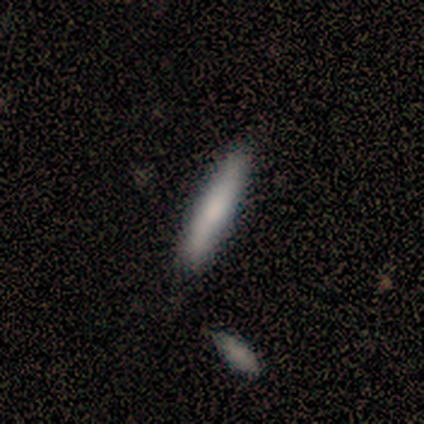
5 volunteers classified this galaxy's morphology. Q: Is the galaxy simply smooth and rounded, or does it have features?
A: smooth — 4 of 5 (80%).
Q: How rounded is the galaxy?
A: cigar-shaped — 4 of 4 (100%).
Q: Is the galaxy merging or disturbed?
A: none — 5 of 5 (100%).